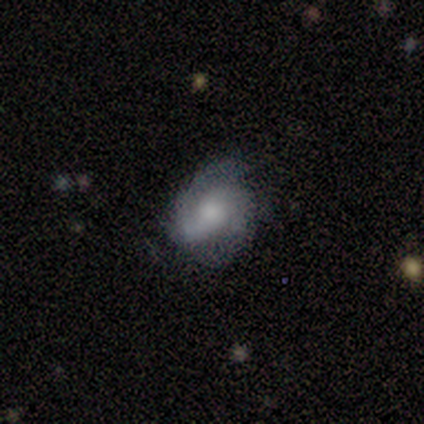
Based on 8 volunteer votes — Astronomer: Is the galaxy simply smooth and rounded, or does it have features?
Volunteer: featured or disk — 88%.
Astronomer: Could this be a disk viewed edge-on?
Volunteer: no — 86%.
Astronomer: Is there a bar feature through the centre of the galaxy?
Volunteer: no — 67%.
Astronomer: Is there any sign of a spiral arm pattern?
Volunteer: yes — 100%.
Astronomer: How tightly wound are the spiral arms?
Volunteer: medium — 83%.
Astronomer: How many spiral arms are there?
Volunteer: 2 — 100%.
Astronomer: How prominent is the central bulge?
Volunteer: small — 50% (runner-up: moderate, 33%).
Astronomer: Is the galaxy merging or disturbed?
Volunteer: none — 88%.